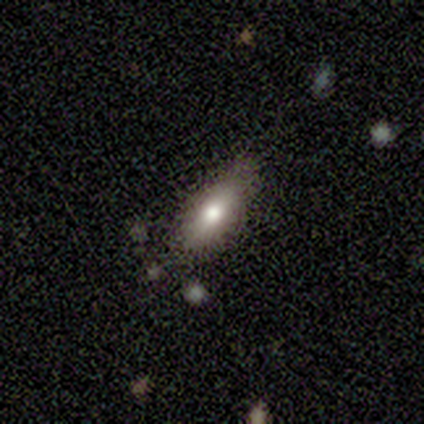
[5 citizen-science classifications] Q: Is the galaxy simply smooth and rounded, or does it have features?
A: smooth — 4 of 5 (80%).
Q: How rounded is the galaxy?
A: in between — 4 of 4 (100%).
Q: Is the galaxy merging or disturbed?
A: none — 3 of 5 (60%).